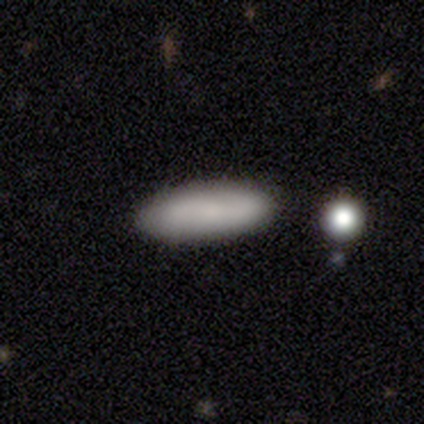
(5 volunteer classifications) Q: Smooth or featured?
A: smooth (80%); runner-up: featured or disk (20%)
Q: How rounded?
A: in between (50%); tied with: cigar-shaped (50%)
Q: Merging?
A: none (80%); runner-up: minor disturbance (20%)